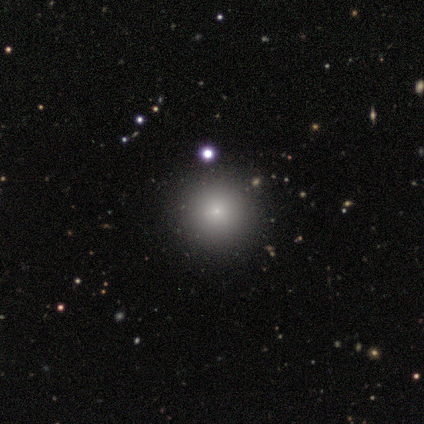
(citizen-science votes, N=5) Q: Smooth or featured?
A: smooth (60%); runner-up: star or artifact (40%)
Q: How rounded?
A: round (100%)
Q: Merging?
A: none (100%)